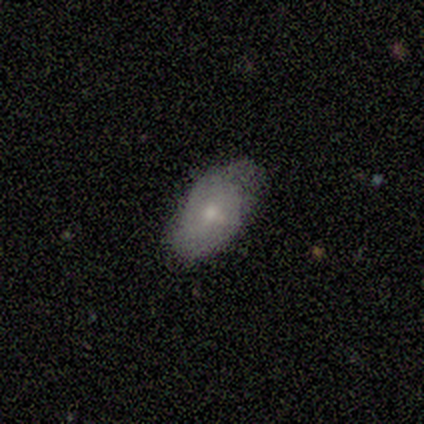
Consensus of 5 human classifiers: smooth_or_featured: smooth (p=0.60) [alt: featured or disk p=0.40]
how_rounded: in between (p=1.00)
merging: none (p=0.60) [alt: minor disturbance p=0.40]